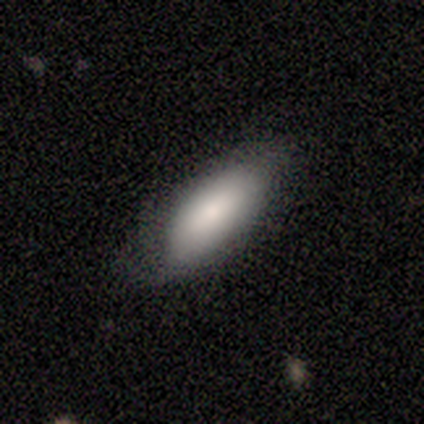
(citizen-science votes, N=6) This appears to be a smooth galaxy with no disk features (83%) that is in between round and cigar-shaped (100%). Merging: none (80%).